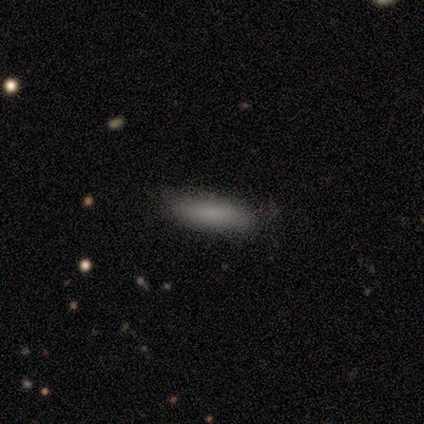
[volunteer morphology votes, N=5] This is clearly a smooth galaxy (80%). How rounded: likely cigar-shaped (75%). Merging: clearly none (100%).